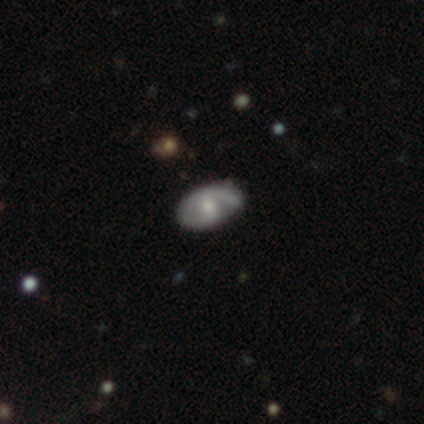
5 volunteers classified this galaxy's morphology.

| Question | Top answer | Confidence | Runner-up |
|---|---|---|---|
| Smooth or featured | star or artifact | 80% | featured or disk (20%) |